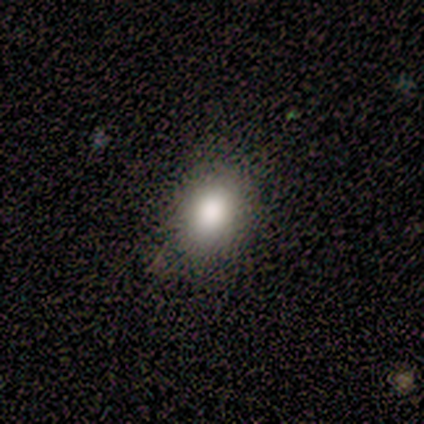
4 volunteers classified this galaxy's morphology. Smooth or featured? 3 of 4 (75%) said smooth. How rounded? 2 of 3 (67%) said in between. Merging? 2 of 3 (67%) said none.